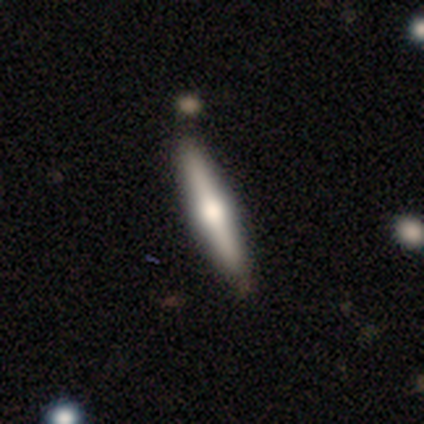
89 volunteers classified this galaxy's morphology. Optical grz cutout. It shows a featured or disk galaxy (67%) viewed edge-on (100%) with a rounded central bulge (93%). Merging: none (93%).